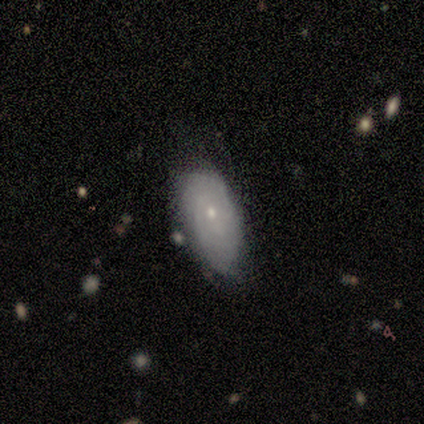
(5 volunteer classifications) Smooth or featured?
  - smooth: 60% *
  - featured or disk: 40%
  - star or artifact: 0%
How rounded?
  - in between: 100% *
  - round: 0%
  - cigar-shaped: 0%
Merging?
  - minor disturbance: 60% *
  - none: 40%
  - major disturbance: 0%
  - merger: 0%